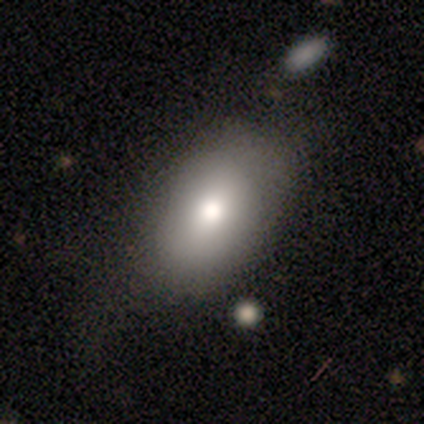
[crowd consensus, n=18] Smooth or featured?
  - smooth: 83% *
  - featured or disk: 11%
  - star or artifact: 6%
How rounded?
  - in between: 93% *
  - round: 7%
  - cigar-shaped: 0%
Merging?
  - none: 59% *
  - minor disturbance: 24%
  - major disturbance: 18%
  - merger: 0%